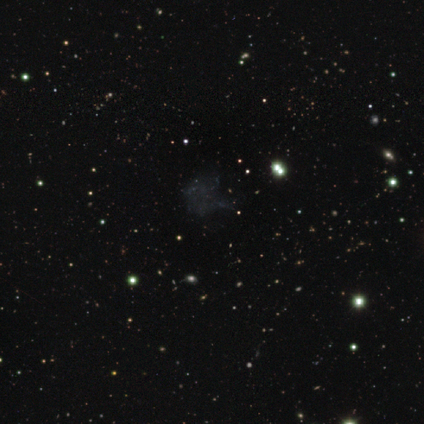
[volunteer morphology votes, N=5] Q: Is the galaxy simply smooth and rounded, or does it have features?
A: featured or disk — 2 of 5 (40%, tied with star or artifact).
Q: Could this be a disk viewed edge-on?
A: no — 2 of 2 (100%).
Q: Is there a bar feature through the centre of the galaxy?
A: no — 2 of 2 (100%).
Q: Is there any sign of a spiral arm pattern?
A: no — 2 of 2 (100%).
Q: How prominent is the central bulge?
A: none — 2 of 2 (100%).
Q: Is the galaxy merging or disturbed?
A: none — 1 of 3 (33%, tied with minor disturbance and major disturbance).